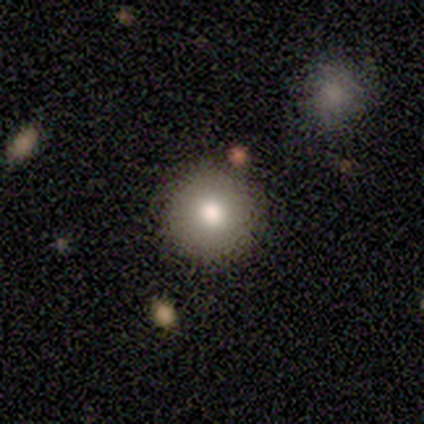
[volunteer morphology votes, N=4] Smooth or featured? smooth (50%, tied with featured or disk)
How rounded? round (100%)
Merging? none (75%)